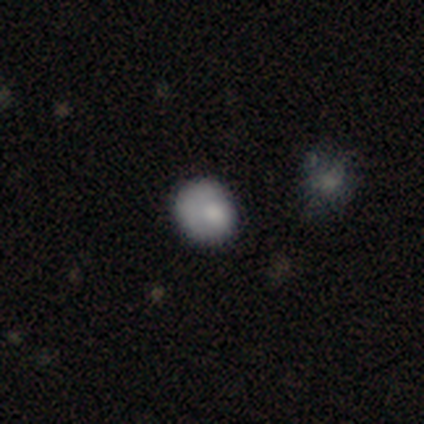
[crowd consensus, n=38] A smooth galaxy with no disk features (74%) that is round (75%).

Vote fractions:
- Smooth or featured? smooth: 74% / featured or disk: 16% / star or artifact: 11%
- How rounded? round: 75% / in between: 25% / cigar-shaped: 0%
- Merging? none: 62% / minor disturbance: 24% / major disturbance: 15% / merger: 0%